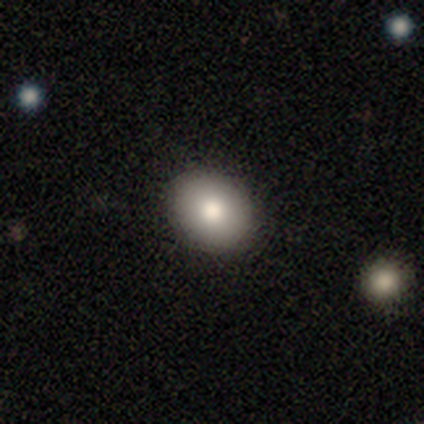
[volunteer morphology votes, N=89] A smooth galaxy with no disk features (85%) that is in between round and cigar-shaped (51%). Merging: none (84%).